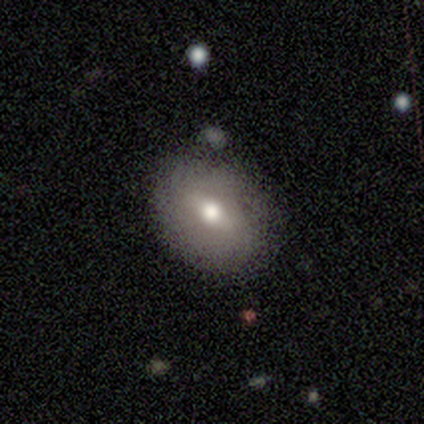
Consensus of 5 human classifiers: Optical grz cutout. It shows a smooth galaxy with no disk features (40%, tied with featured or disk) that is round (50%, tied with in between). Merging: none (75%).